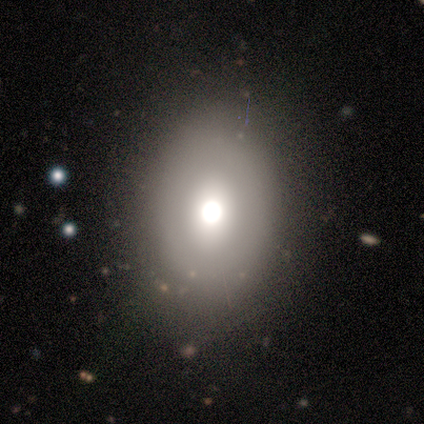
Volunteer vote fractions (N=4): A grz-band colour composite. It shows a smooth galaxy with no disk features (50%, tied with featured or disk) that is round (50%, tied with in between). Merging: none (75%).